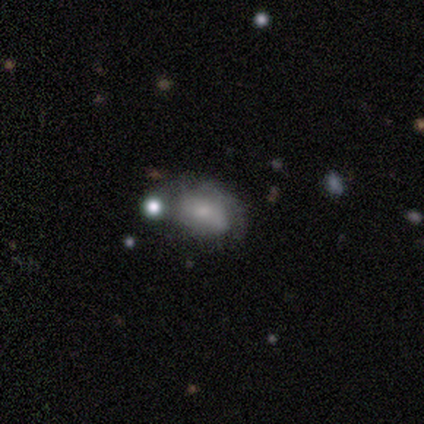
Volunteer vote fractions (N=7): Q: Smooth or featured?
A: smooth (43%); tied with: featured or disk (43%)
Q: How rounded?
A: in between (67%); runner-up: cigar-shaped (33%)
Q: Merging?
A: minor disturbance (50%); runner-up: none (33%)